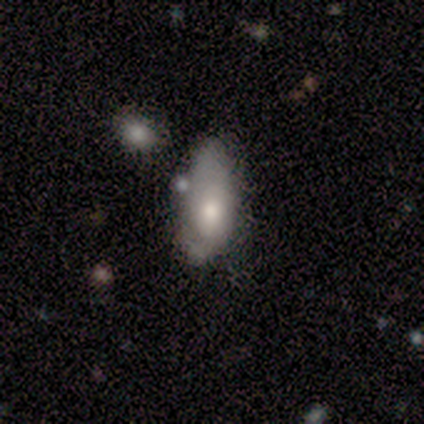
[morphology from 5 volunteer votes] This appears to be a smooth galaxy with no disk features (60%) that is in between round and cigar-shaped (100%). Merging: minor disturbance (60%).